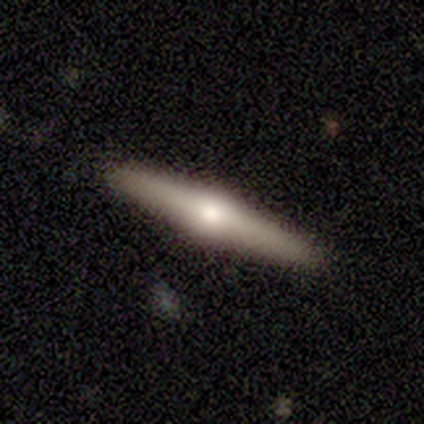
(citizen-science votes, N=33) Overall: featured or disk (64%). Edge-on disk: yes (100%). Edge-on bulge: rounded (100%). Merging: none (96%).